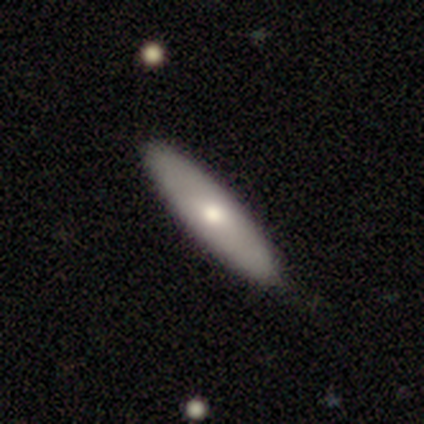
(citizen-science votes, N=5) This is likely a smooth galaxy (60%). How rounded: likely cigar-shaped (67%). Merging: possibly none (50%, tied with minor disturbance).